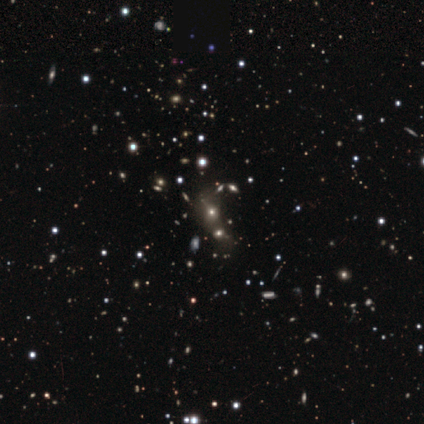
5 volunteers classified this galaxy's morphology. Smooth or featured? smooth (60%)
How rounded? round (67%)
Merging? none (100%)